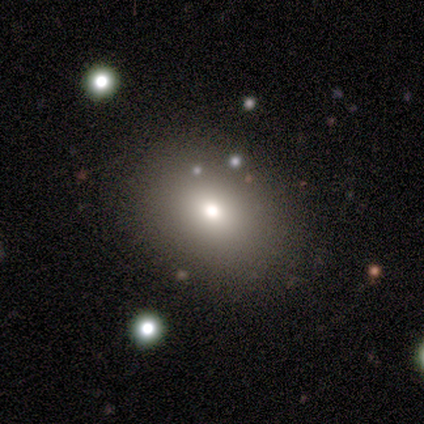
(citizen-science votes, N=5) smooth 60%, featured or disk 20%, star or artifact 20%. Down the decision tree: how rounded — in between (100%); merging — none (100%).